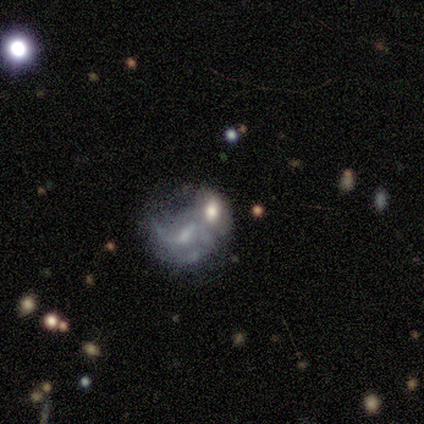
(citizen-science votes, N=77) smooth-or-featured: featured or disk: 66% | smooth: 25% | star or artifact: 9%
  disk-edge-on: no: 96% | yes: 4%
    bar: no: 63% | weak: 29% | strong: 8%
    has-spiral-arms: no: 53% | yes: 47%
    bulge-size: moderate: 55% | large: 18% | none: 14% | small: 10% | dominant: 2%
  merging: merger: 63% | none: 21% | minor disturbance: 13% | major disturbance: 3%